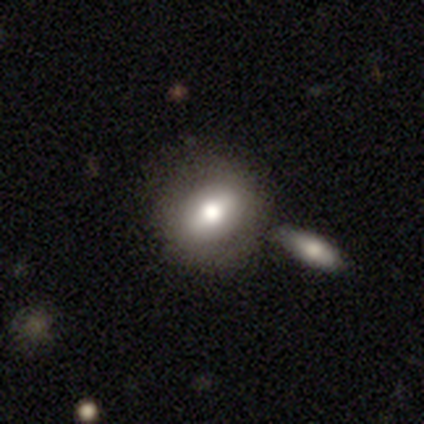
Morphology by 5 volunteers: Q: Smooth or featured?
A: smooth (60%); runner-up: featured or disk (40%)
Q: How rounded?
A: round (100%)
Q: Merging?
A: none (40%); runner-up: minor disturbance (20%)